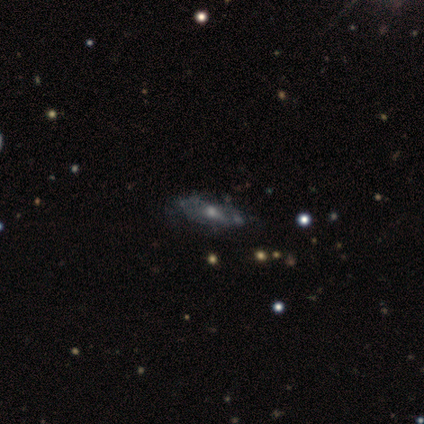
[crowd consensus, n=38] This is likely a featured or disk galaxy (71%). It is clearly not viewed edge-on (85%). Bar: likely no (70%). Spiral arm pattern: possibly no (57%). Central bulge: likely moderate (70%). Merging: likely none (73%).